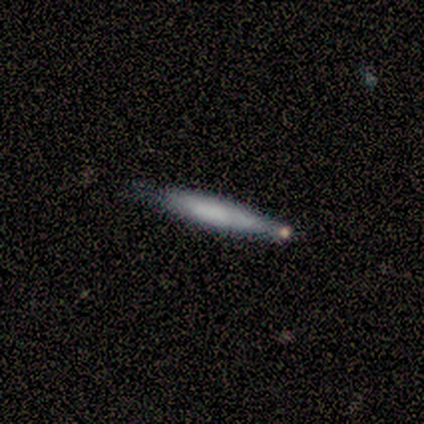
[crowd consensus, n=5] Smooth or featured? 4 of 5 (80%) said smooth. How rounded? 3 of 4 (75%) said cigar-shaped. Merging? 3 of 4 (75%) said minor disturbance.